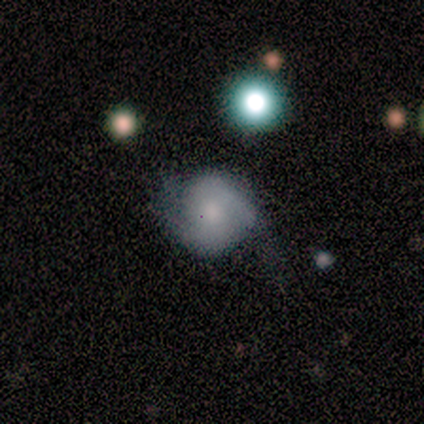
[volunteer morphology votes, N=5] Q: Smooth or featured?
A: smooth (40%); tied with: featured or disk (40%)
Q: How rounded?
A: round (100%)
Q: Merging?
A: none (50%); runner-up: minor disturbance (25%)